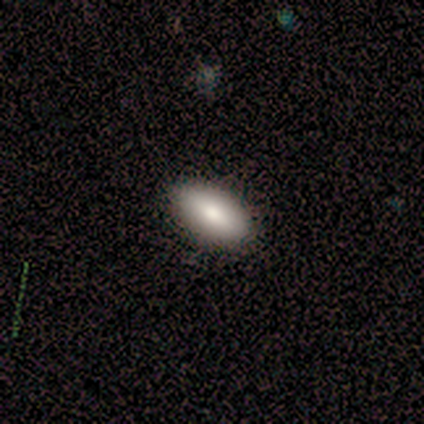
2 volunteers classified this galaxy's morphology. Smooth or featured? smooth (100%)
How rounded? in between (100%)
Merging? none (100%)